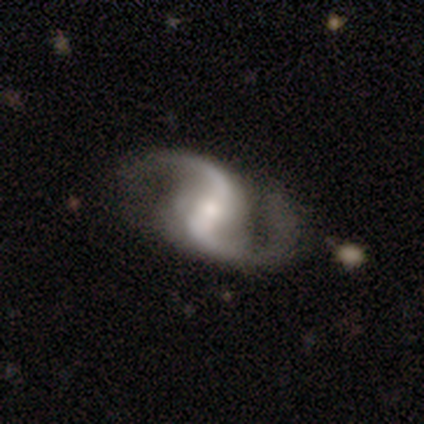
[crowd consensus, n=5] Smooth or featured? 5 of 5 (100%) said featured or disk. Edge-on disk? 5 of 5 (100%) said no. Bar? 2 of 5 (40%, tied with weak) said strong. Spiral arms? 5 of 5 (100%) said yes. Spiral winding? 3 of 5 (60%) said loose. Spiral arm count? 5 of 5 (100%) said 2. Bulge size? 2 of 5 (40%) said none. Merging? 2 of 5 (40%, tied with minor disturbance) said none.